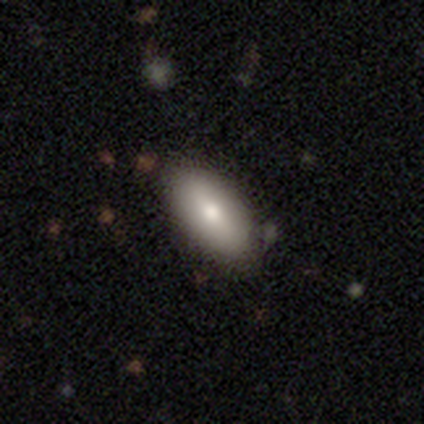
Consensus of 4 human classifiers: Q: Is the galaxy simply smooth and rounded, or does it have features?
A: smooth — 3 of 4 (75%).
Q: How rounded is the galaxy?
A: in between — 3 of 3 (100%).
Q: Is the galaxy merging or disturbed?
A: none — 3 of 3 (100%).